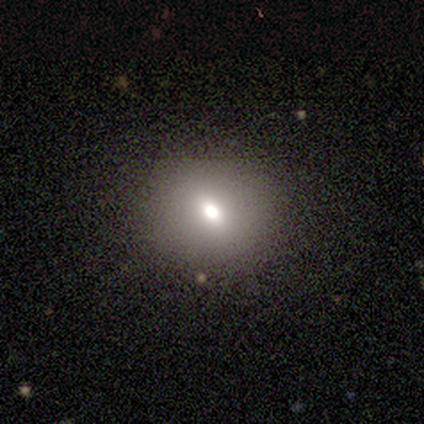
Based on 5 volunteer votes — A smooth galaxy with no disk features (40%, tied with star or artifact) that is round (100%).

Vote fractions:
- Smooth or featured? smooth: 40% (tied) / star or artifact: 40% (tied) / featured or disk: 20%
- How rounded? round: 100% / in between: 0% / cigar-shaped: 0%
- Merging? none: 67% / minor disturbance: 33% / major disturbance: 0% / merger: 0%